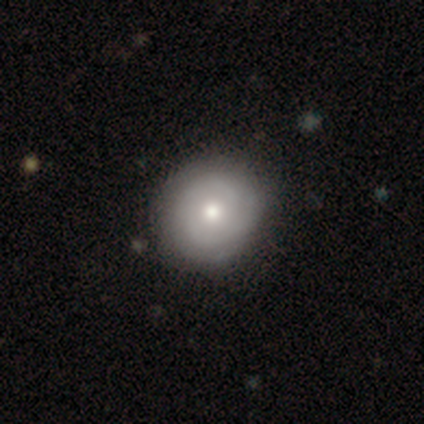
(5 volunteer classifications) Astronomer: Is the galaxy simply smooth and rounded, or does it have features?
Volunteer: featured or disk — 80%.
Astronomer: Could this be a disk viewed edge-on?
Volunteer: no — 100%.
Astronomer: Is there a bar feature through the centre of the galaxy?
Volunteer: weak — 50%, tied with no at 50%.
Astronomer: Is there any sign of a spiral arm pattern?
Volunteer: yes — 100%.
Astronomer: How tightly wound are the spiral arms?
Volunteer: tight — 75%.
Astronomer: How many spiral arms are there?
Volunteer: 2 — 75%.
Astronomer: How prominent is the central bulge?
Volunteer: moderate — 75%.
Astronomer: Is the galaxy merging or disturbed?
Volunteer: none — 80%.